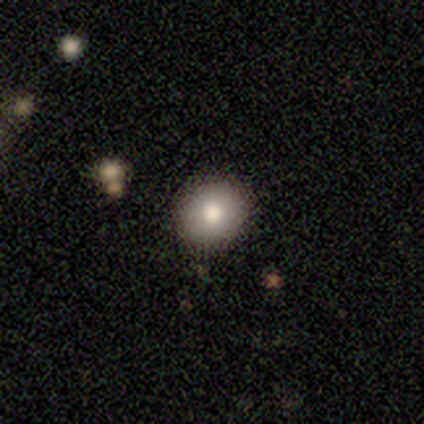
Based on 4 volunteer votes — A smooth galaxy with no disk features (50%, tied with star or artifact) that is round (100%).

Vote fractions:
- Smooth or featured? smooth: 50% (tied) / star or artifact: 50% (tied) / featured or disk: 0%
- How rounded? round: 100% / in between: 0% / cigar-shaped: 0%
- Merging? none: 100% / minor disturbance: 0% / major disturbance: 0% / merger: 0%